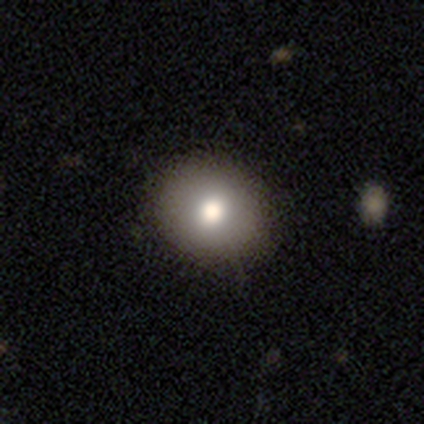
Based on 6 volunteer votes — Q: Smooth or featured?
A: smooth (67%); runner-up: featured or disk (33%)
Q: How rounded?
A: round (50%); tied with: in between (50%)
Q: Merging?
A: none (83%); runner-up: minor disturbance (17%)